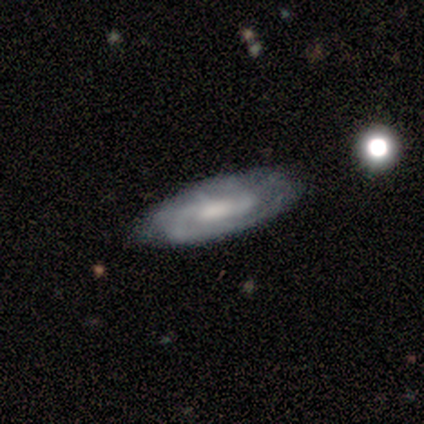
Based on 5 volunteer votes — A featured or disk galaxy (100%) with a weak bar (50%, tied with no), 2 (75%) medium (75%) spiral arms (100%) and a small central bulge (50%). Merging: none (80%).